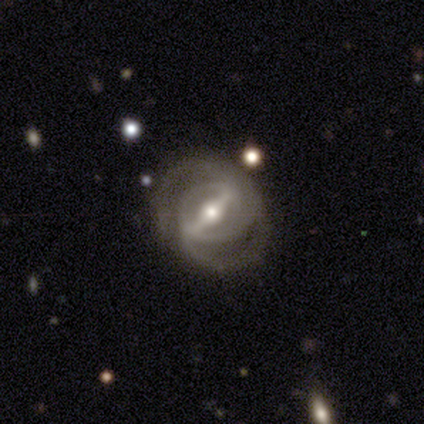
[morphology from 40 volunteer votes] A featured or disk galaxy (100%) with a strong bar (92%), 2 (76%) tight (51%) spiral arms (100%) and a moderate central bulge (62%). Merging: none (80%).